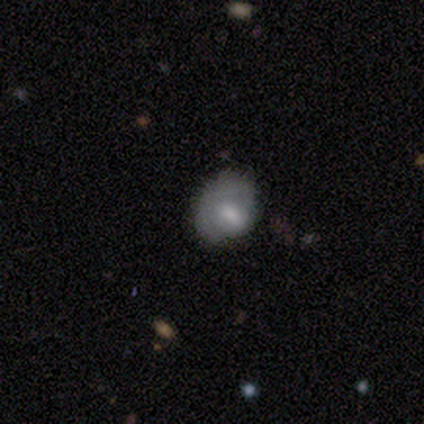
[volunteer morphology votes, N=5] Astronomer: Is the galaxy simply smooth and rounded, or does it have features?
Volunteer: smooth — 40%, tied with featured or disk at 40%.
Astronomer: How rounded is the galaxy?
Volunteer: round — 100%.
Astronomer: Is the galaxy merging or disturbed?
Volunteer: none — 50%, tied with major disturbance at 50%.